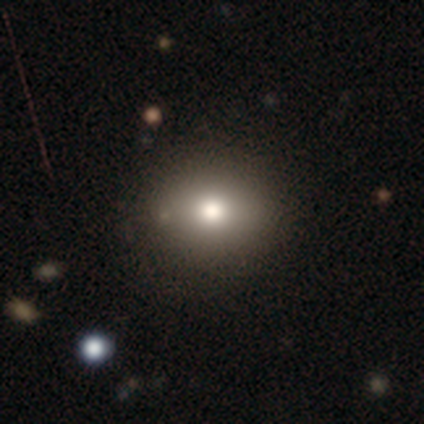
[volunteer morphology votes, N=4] A smooth galaxy with no disk features (75%) that is round (100%). Merging: none (75%).